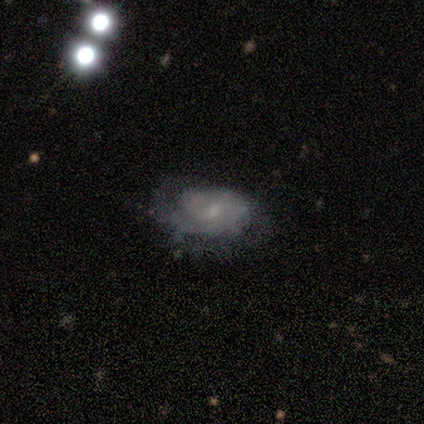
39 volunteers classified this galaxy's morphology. A featured or disk galaxy (67%) with no bar (52%), 2 (30%, tied with can't tell) tight (60%) spiral arms (80%) and a small central bulge (60%).

Vote fractions:
- Smooth or featured? featured or disk: 67% / smooth: 26% / star or artifact: 8%
- Edge-on disk? no: 96% / yes: 4%
- Bar? no: 52% / weak: 48% / strong: 0%
- Spiral arms? yes: 80% / no: 20%
- Spiral winding? tight: 60% / medium: 20% / loose: 20%
- Spiral arm count? 2: 30% (tied) / can't tell: 30% (tied) / 1: 20% / 3: 20% / 4: 0% / more than 4: 0%
- Bulge size? small: 60% / moderate: 40% / dominant: 0% / large: 0% / none: 0%
- Merging? none: 58% / minor disturbance: 31% / major disturbance: 8% / merger: 3%